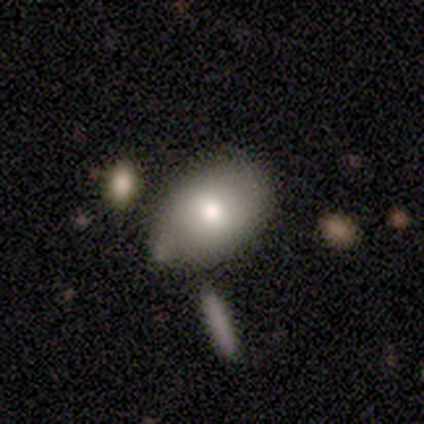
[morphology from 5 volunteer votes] A smooth galaxy with no disk features (100%) that is in between round and cigar-shaped (80%). Merging: none (100%).